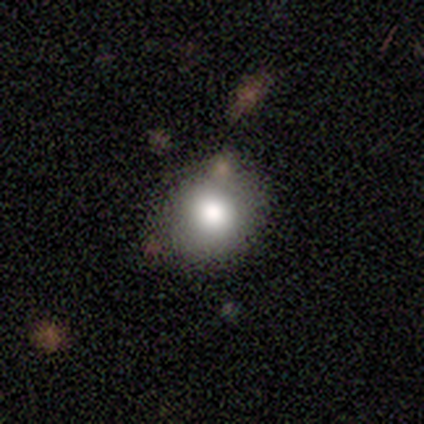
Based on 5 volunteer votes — Morphology: type=smooth (100%); roundness=round (80%); merging=none (40%, tied with minor disturbance).